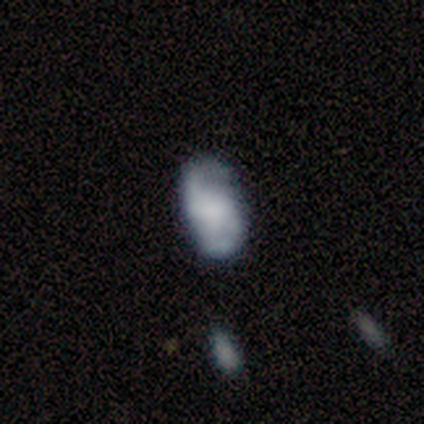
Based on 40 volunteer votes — This appears to be a featured or disk galaxy (68%) with no bar (63%), 2 (90%) medium (67%) spiral arms (78%) and a moderate central bulge (37%, tied with none). Merging: none (44%).